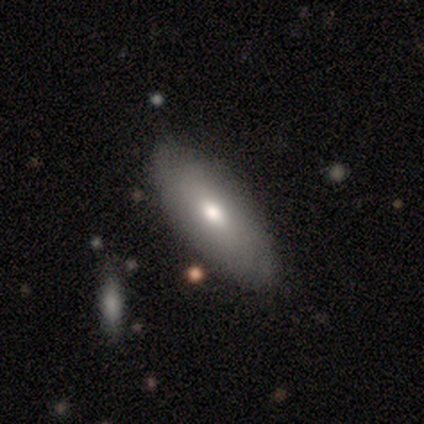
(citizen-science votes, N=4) Smooth or featured?
  - smooth: 100% *
  - featured or disk: 0%
  - star or artifact: 0%
How rounded?
  - in between: 75% *
  - cigar-shaped: 25%
  - round: 0%
Merging?
  - none: 75% *
  - minor disturbance: 25%
  - major disturbance: 0%
  - merger: 0%